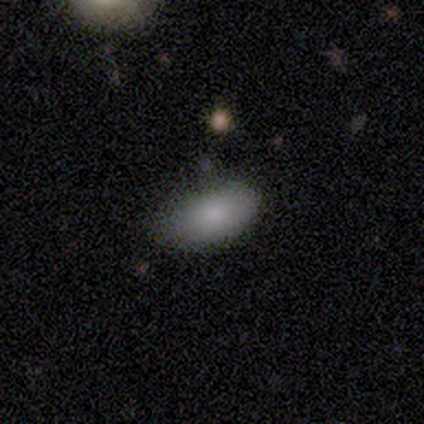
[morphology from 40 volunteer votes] Overall: smooth (90%). How rounded: in between (97%). Merging: none (82%).